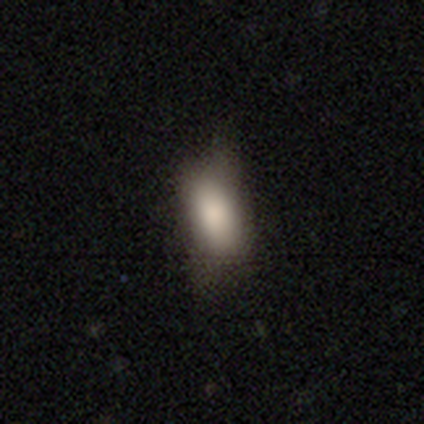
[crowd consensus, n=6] Volunteers were most divided on "merging" (2-way tie): none: 50%, minor disturbance: 50%, major disturbance: 0%, merger: 0%. More confident: smooth or featured — smooth (83%); how rounded — in between (80%).